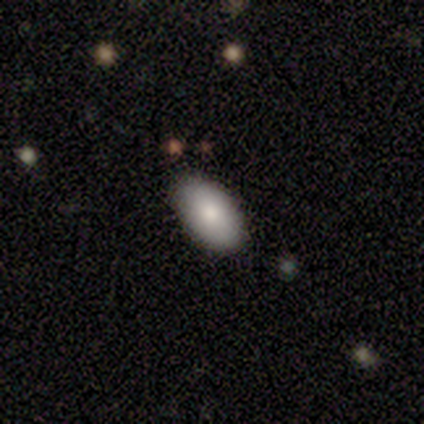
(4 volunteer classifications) smooth_or_featured: smooth (p=0.75) [alt: featured or disk p=0.25]
how_rounded: in between (p=1.00)
merging: none (p=0.75) [alt: minor disturbance p=0.25]